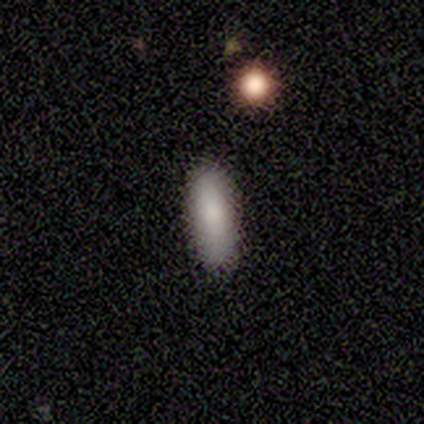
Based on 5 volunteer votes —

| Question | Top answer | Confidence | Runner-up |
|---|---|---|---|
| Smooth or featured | smooth | 100% | — |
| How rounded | in between | 60% | cigar-shaped (40%) |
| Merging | none | 100% | — |